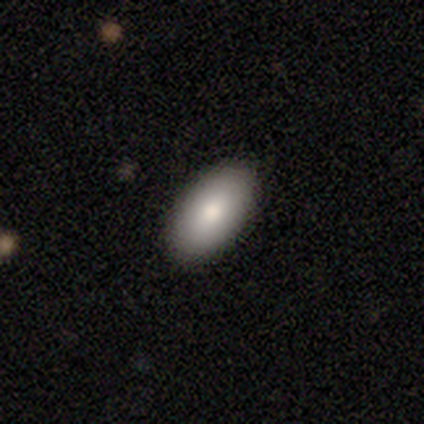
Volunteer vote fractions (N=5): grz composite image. It shows a smooth galaxy with no disk features (80%) that is in between round and cigar-shaped (100%). Merging: none (100%).